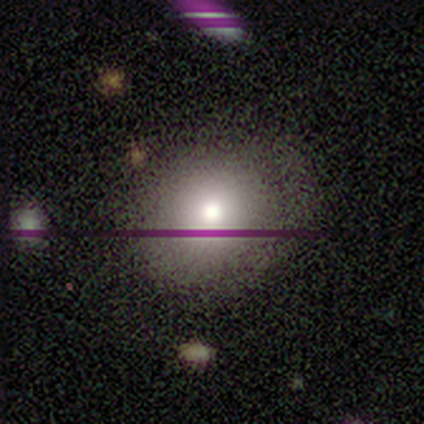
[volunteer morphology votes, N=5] Volunteers were most divided on "how rounded": round: 67%, in between: 33%, cigar-shaped: 0%. More confident: merging — none (100%); smooth or featured — smooth (60%).